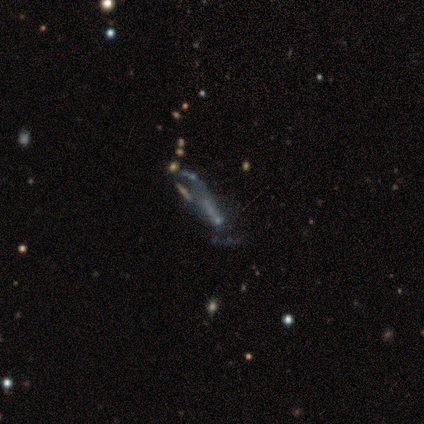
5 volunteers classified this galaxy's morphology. A featured or disk galaxy (80%) with no bar (75%), no spiral arms (100%) and no central bulge (100%).

Vote fractions:
- Smooth or featured? featured or disk: 80% / star or artifact: 20% / smooth: 0%
- Edge-on disk? no: 100% / yes: 0%
- Bar? no: 75% / weak: 25% / strong: 0%
- Spiral arms? no: 100% / yes: 0%
- Bulge size? none: 100% / dominant: 0% / large: 0% / moderate: 0% / small: 0%
- Merging? major disturbance: 75% / none: 25% / minor disturbance: 0% / merger: 0%